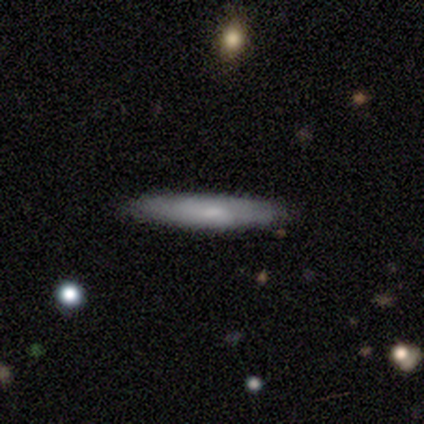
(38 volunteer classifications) Overall: smooth (74%). How rounded: cigar-shaped (93%). Merging: none (78%).